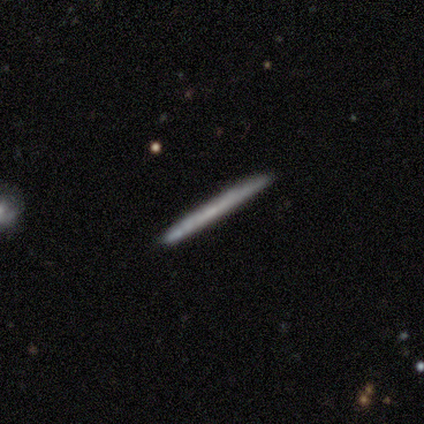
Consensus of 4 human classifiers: This appears to be a smooth galaxy with no disk features (100%) that is cigar-shaped (75%). Merging: none (75%).